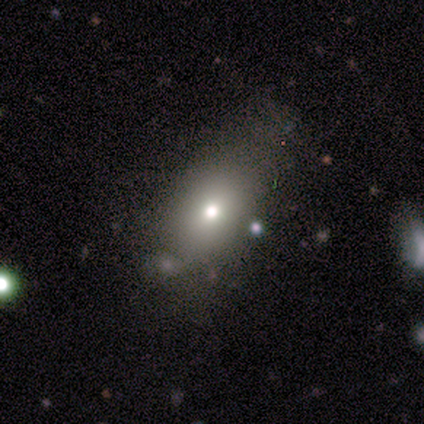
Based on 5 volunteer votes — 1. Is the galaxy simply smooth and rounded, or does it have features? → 100% smooth, 0% featured or disk, 0% star or artifact.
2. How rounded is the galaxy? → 60% in between, 40% round, 0% cigar-shaped.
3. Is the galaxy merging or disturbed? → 40% none, 20% minor disturbance, 20% major disturbance, 20% merger.